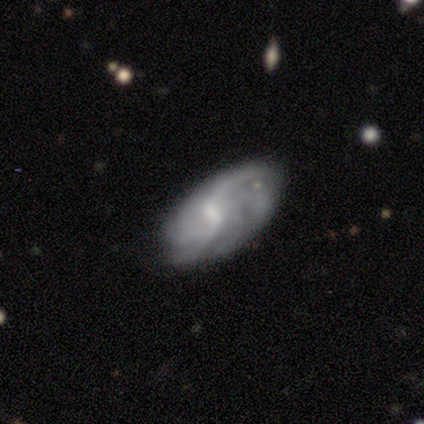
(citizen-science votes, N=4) featured or disk 100%, smooth 0%, star or artifact 0%. Down the decision tree: edge-on disk — no (100%); bar — strong (50%, tied with weak); spiral arms — yes (100%); spiral arm count — can't tell (50%); spiral winding — tight (50%, tied with loose); bulge size — moderate (50%, tied with small); merging — none (75%).